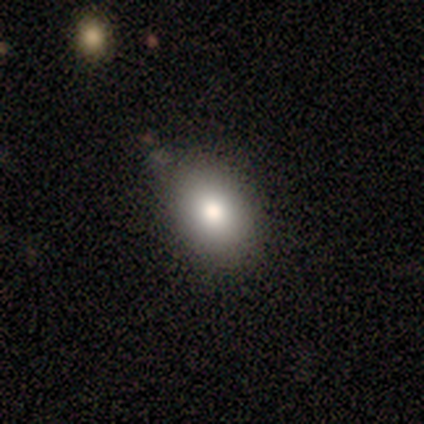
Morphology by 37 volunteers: Smooth or featured?
  - smooth: 76% *
  - featured or disk: 14%
  - star or artifact: 11%
How rounded?
  - round: 50% * (tied)
  - in between: 50% * (tied)
  - cigar-shaped: 0%
Merging?
  - none: 85% *
  - minor disturbance: 12%
  - major disturbance: 3%
  - merger: 0%